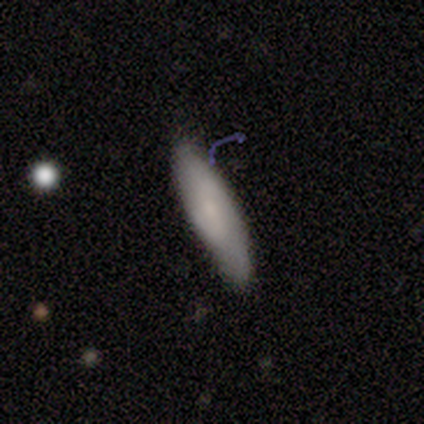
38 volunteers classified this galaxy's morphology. Smooth or featured? 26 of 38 (68%) said smooth. How rounded? 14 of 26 (54%) said cigar-shaped. Merging? 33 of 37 (89%) said none.